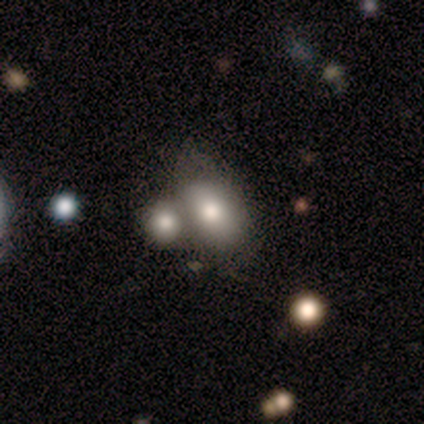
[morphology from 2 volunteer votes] Smooth or featured: smooth — 50% (tied with star or artifact — 50%)
How rounded: in between — 100%
Merging: merger — 100%